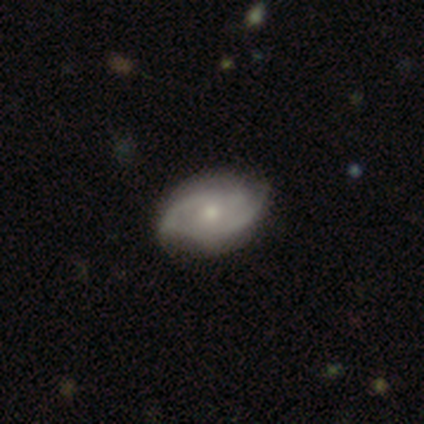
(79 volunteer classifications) A featured or disk galaxy (72%) with no bar (74%), 2 (73%) medium (49%) spiral arms (86%) and a small central bulge (54%). Merging: none (45%).